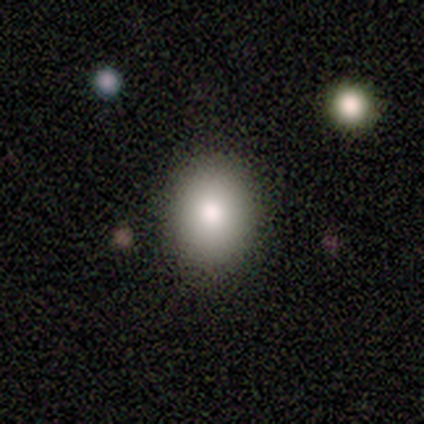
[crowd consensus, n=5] smooth 80%, featured or disk 20%, star or artifact 0%. Down the decision tree: how rounded — round (75%); merging — none (100%).